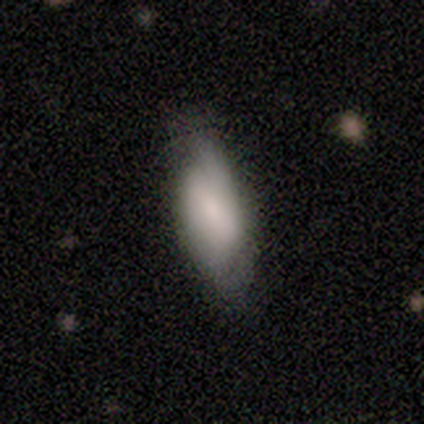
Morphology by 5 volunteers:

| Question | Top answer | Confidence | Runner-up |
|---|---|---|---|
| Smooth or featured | smooth | 60% | featured or disk (40%) |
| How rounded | in between | 100% | — |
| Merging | minor disturbance | 60% | none (40%) |